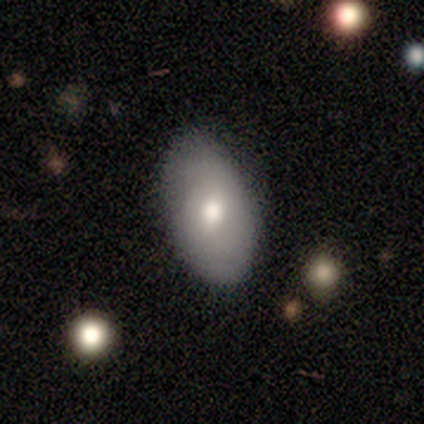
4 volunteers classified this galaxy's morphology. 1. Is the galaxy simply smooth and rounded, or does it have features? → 75% smooth, 25% featured or disk, 0% star or artifact.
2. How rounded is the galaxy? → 100% in between, 0% round, 0% cigar-shaped.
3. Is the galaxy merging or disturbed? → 50% none, 25% minor disturbance, 25% major disturbance, 0% merger.